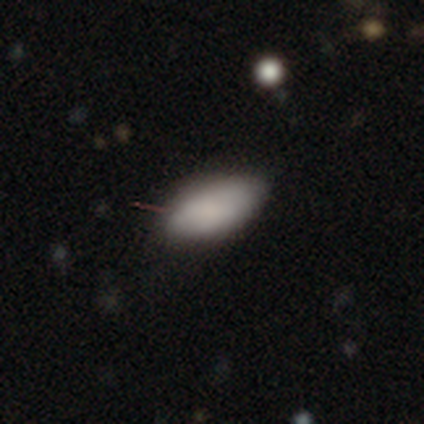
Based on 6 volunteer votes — Smooth or featured: smooth — 100%
How rounded: in between — 100%
Merging: none — 100%